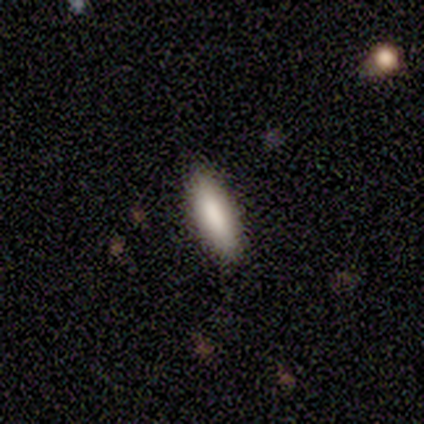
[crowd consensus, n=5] Smooth or featured: smooth — 80% (featured or disk — 20%)
How rounded: in between — 75% (cigar-shaped — 25%)
Merging: none — 100%